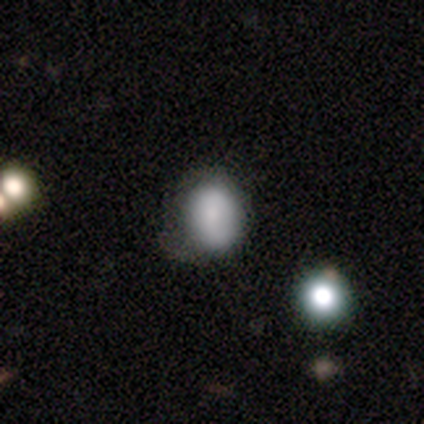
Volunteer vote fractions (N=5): Q: Smooth or featured?
A: smooth (80%); runner-up: featured or disk (20%)
Q: How rounded?
A: round (75%); runner-up: in between (25%)
Q: Merging?
A: minor disturbance (60%); runner-up: none (40%)